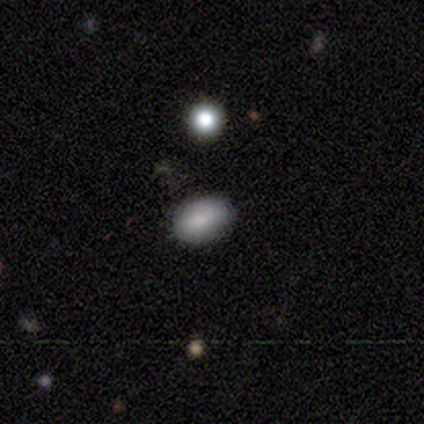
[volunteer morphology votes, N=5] A smooth galaxy with no disk features (80%) that is in between round and cigar-shaped (100%).

Vote fractions:
- Smooth or featured? smooth: 80% / star or artifact: 20% / featured or disk: 0%
- How rounded? in between: 100% / round: 0% / cigar-shaped: 0%
- Merging? none: 75% / minor disturbance: 25% / major disturbance: 0% / merger: 0%